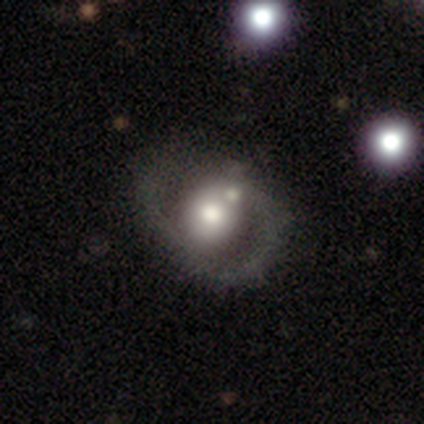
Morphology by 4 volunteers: Smooth or featured: featured or disk — 75% (star or artifact — 25%)
Edge-on disk: no — 100%
Bar: no — 100%
Spiral arms: no — 67% (yes — 33%)
Bulge size: large — 67% (moderate — 33%)
Merging: major disturbance — 67% (none — 33%)